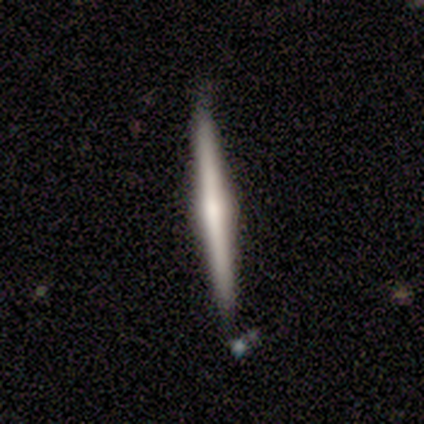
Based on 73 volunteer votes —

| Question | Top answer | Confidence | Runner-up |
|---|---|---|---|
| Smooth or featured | featured or disk | 59% | smooth (34%) |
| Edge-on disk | yes | 100% | — |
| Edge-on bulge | rounded | 88% | none (7%) |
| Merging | none | 94% | minor disturbance (6%) |